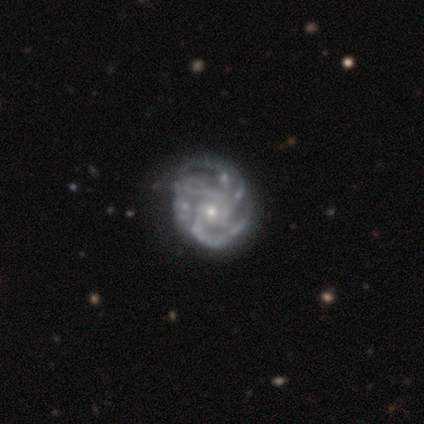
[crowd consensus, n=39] This is clearly a featured or disk galaxy (97%). It is clearly not viewed edge-on (97%). Bar: clearly no (81%). Spiral arm pattern: clearly yes (100%). Spiral arm count: marginally 4 (32%). Spiral winding: likely tight (70%). Central bulge: likely small (70%). Merging: marginally none (41%).